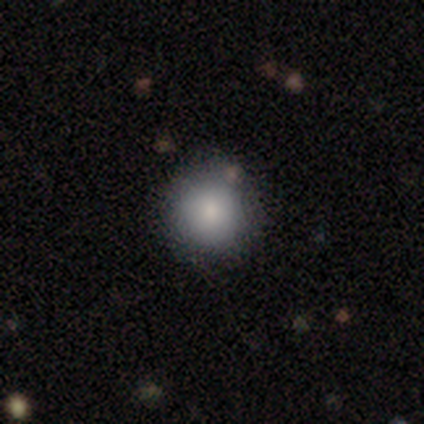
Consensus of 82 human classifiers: Q: Smooth or featured?
A: smooth (88%); runner-up: star or artifact (10%)
Q: How rounded?
A: round (93%); runner-up: in between (7%)
Q: Merging?
A: none (95%); runner-up: minor disturbance (4%)